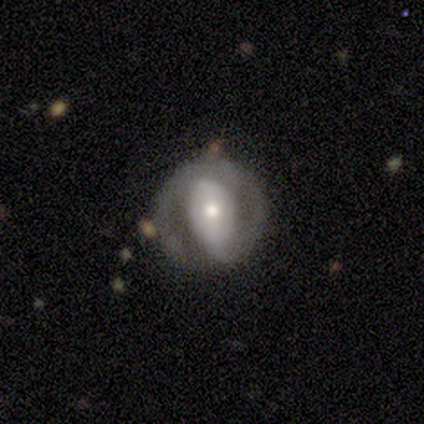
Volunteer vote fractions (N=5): A featured or disk galaxy (100%) with a weak bar (40%, tied with no), 2 (75%) loose (50%) spiral arms (80%) and a moderate central bulge (60%).

Vote fractions:
- Smooth or featured? featured or disk: 100% / smooth: 0% / star or artifact: 0%
- Edge-on disk? no: 100% / yes: 0%
- Bar? weak: 40% (tied) / no: 40% (tied) / strong: 20%
- Spiral arms? yes: 80% / no: 20%
- Spiral winding? loose: 50% / tight: 25% / medium: 25%
- Spiral arm count? 2: 75% / 1: 25% / 3: 0% / 4: 0% / more than 4: 0% / can't tell: 0%
- Bulge size? moderate: 60% / large: 20% / small: 20% / dominant: 0% / none: 0%
- Merging? none: 100% / minor disturbance: 0% / major disturbance: 0% / merger: 0%